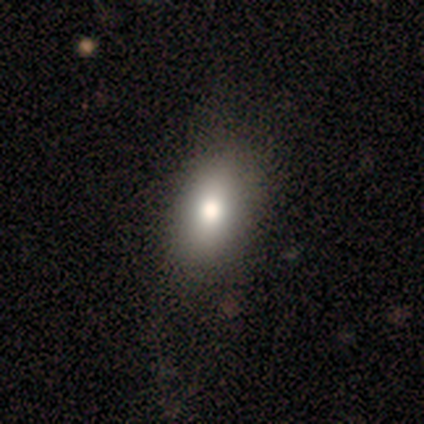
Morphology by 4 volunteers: This appears to be a smooth galaxy with no disk features (100%) that is in between round and cigar-shaped (100%). Merging: none (75%).